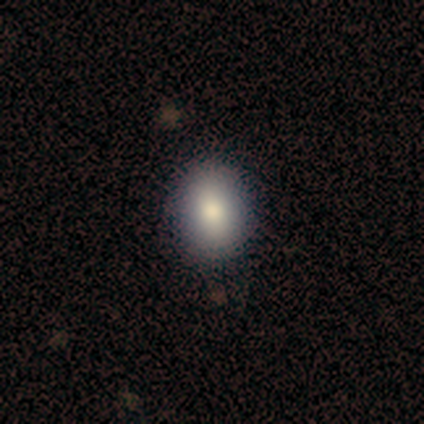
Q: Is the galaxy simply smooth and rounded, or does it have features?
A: smooth — 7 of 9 (78%).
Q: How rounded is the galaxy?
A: in between — 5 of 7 (71%).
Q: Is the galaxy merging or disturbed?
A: none — 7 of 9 (78%).